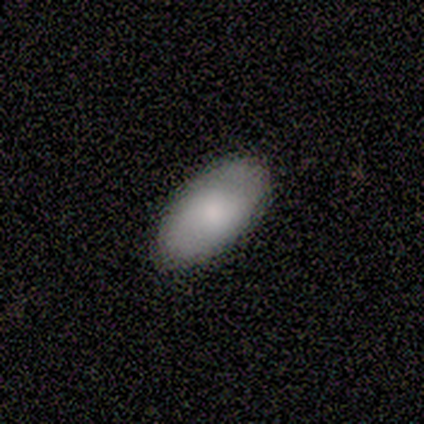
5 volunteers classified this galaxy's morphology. Smooth or featured? 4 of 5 (80%) said smooth. How rounded? 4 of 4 (100%) said in between. Merging? 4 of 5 (80%) said none.